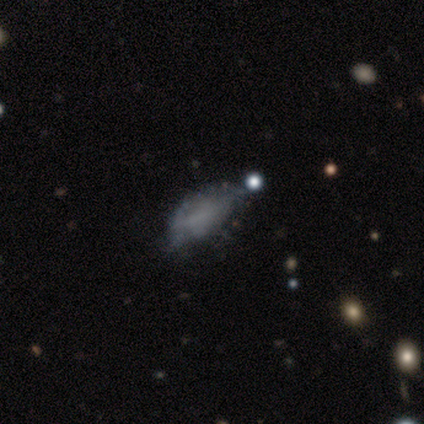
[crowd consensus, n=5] A smooth galaxy with no disk features (40%, tied with featured or disk) that is in between round and cigar-shaped (100%). Merging: none (50%, tied with major disturbance).